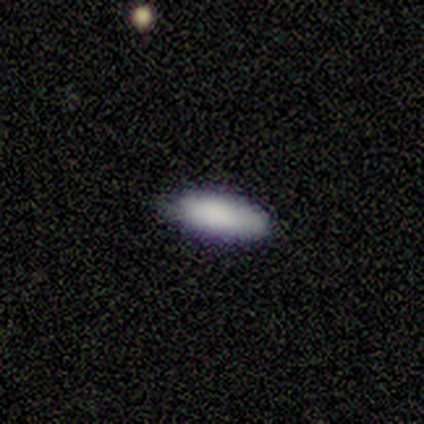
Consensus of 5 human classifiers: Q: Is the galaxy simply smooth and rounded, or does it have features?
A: smooth — 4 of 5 (80%).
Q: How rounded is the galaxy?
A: in between — 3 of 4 (75%).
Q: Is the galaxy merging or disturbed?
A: none — 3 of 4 (75%).